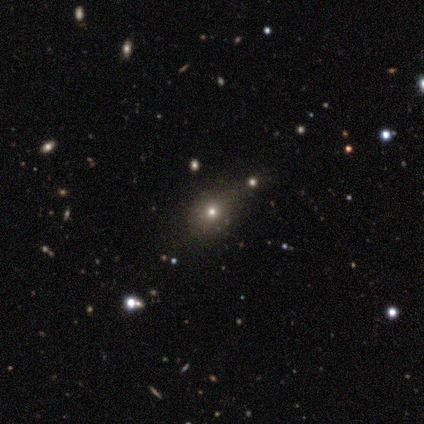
smooth_or_featured: smooth (p=0.50) [alt: star or artifact p=0.29]
how_rounded: round (p=0.71) [alt: in between p=0.29]
merging: none (p=0.80) [alt: minor disturbance p=0.10]